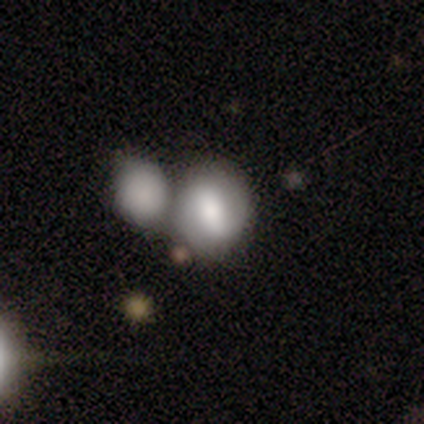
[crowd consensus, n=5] Overall: smooth (40%, tied with featured or disk). How rounded: in between (100%). Merging: minor disturbance (50%, tied with merger).